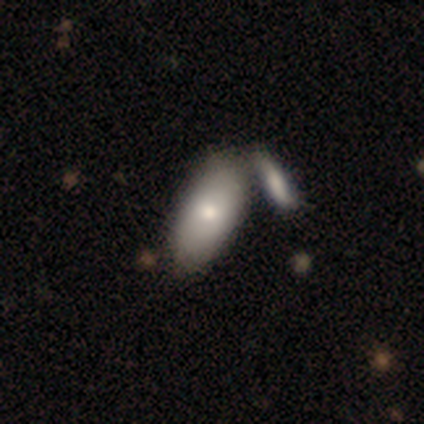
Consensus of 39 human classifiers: Smooth or featured? 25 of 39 (64%) said smooth. How rounded? 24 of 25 (96%) said in between. Merging? 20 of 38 (53%) said merger.